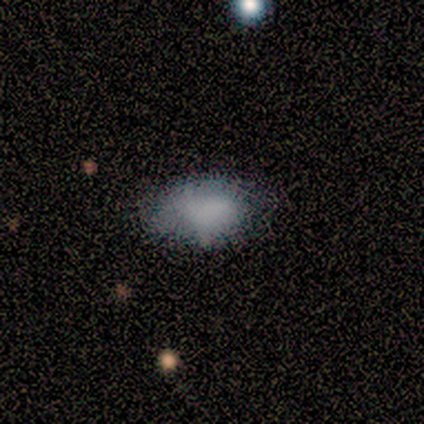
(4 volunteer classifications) smooth-or-featured: smooth: 100% | featured or disk: 0% | star or artifact: 0%
  how-rounded: in between: 100% | round: 0% | cigar-shaped: 0%
  merging: none: 75% | minor disturbance: 25% | major disturbance: 0% | merger: 0%